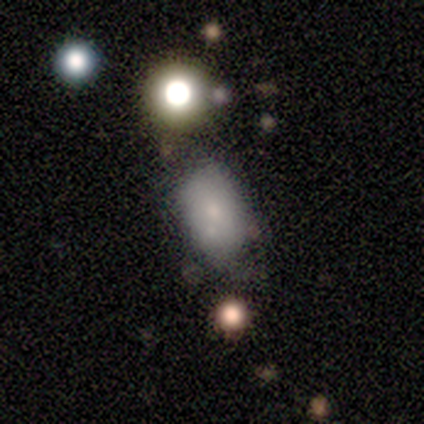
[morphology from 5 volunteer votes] smooth 80%, featured or disk 20%, star or artifact 0%. Down the decision tree: how rounded — in between (100%); merging — none (40%, tied with minor disturbance).